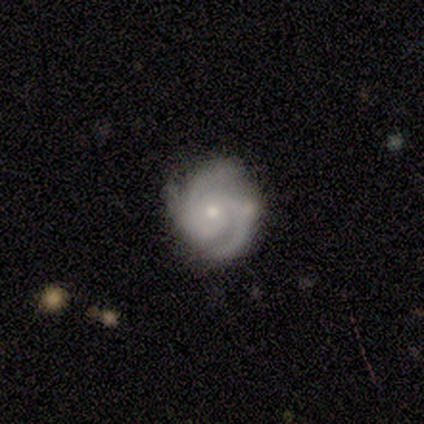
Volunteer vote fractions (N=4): Morphology: type=featured or disk (100%); edge-on=no (100%); bar=weak (50%, tied with no); spiral arms=yes (100%); winding=tight (75%); arm count=2 (75%); bulge=small (75%); merging=none (75%).